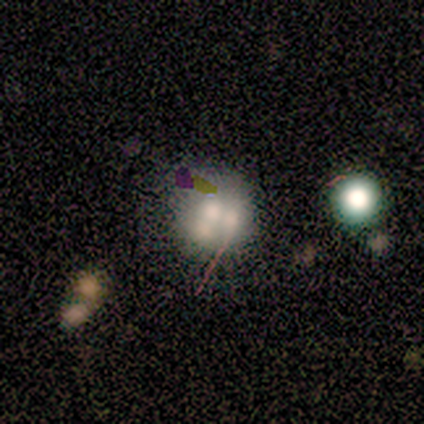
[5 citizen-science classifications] Smooth or featured?
  - smooth: 80% *
  - star or artifact: 20%
  - featured or disk: 0%
How rounded?
  - round: 75% *
  - in between: 25%
  - cigar-shaped: 0%
Merging?
  - minor disturbance: 50% *
  - major disturbance: 25%
  - merger: 25%
  - none: 0%